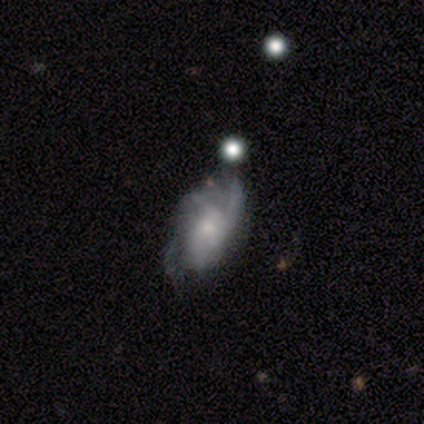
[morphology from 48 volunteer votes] Smooth or featured?
  - featured or disk: 81% *
  - smooth: 19%
  - star or artifact: 0%
Edge-on disk?
  - no: 100% *
  - yes: 0%
Bar?
  - no: 85% *
  - weak: 15%
  - strong: 0%
Spiral arms?
  - yes: 82% *
  - no: 18%
Spiral winding?
  - tight: 56% *
  - medium: 31%
  - loose: 12%
Spiral arm count?
  - can't tell: 50% *
  - 2: 22%
  - 3: 19%
  - 1: 3%
  - 4: 3%
  - more than 4: 3%
Bulge size?
  - small: 51% *
  - moderate: 41%
  - none: 5%
  - large: 3%
  - dominant: 0%
Merging?
  - none: 42% *
  - minor disturbance: 35%
  - major disturbance: 17%
  - merger: 6%